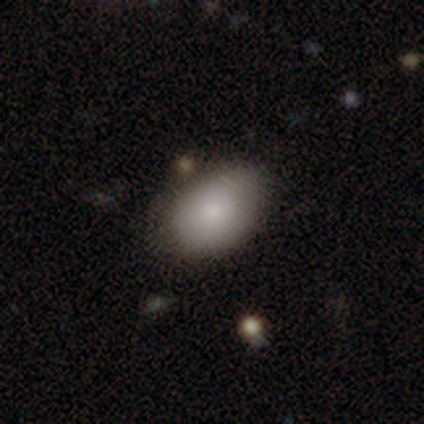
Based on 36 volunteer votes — Q: Smooth or featured?
A: smooth (86%); runner-up: featured or disk (8%)
Q: How rounded?
A: in between (90%); runner-up: round (10%)
Q: Merging?
A: none (76%); runner-up: minor disturbance (18%)